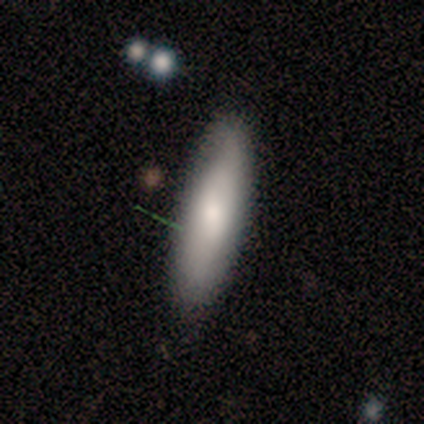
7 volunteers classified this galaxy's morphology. smooth_or_featured: smooth (p=0.71) [alt: star or artifact p=0.29]
how_rounded: in between (p=0.40) [tied with: cigar-shaped p=0.40]
merging: none (p=0.80) [alt: minor disturbance p=0.20]